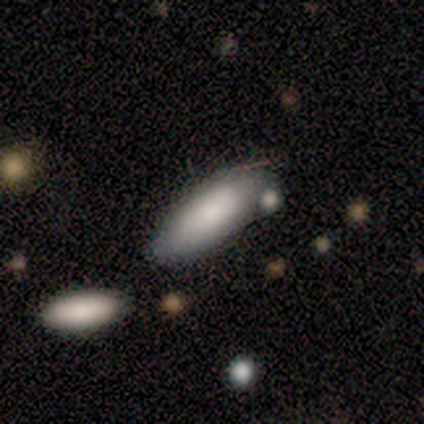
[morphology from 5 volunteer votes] smooth 80%, featured or disk 20%, star or artifact 0%. Down the decision tree: how rounded — in between (75%); merging — none (60%).